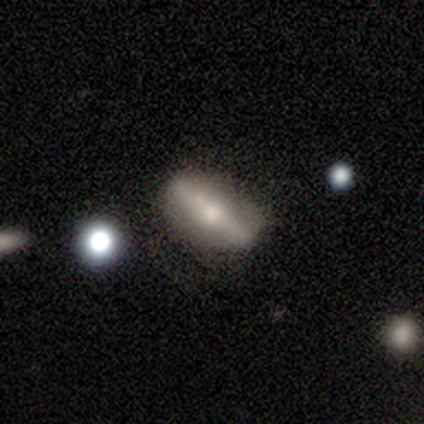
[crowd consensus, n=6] A smooth galaxy with no disk features (50%, tied with featured or disk) that is in between round and cigar-shaped (67%). Merging: none (83%).